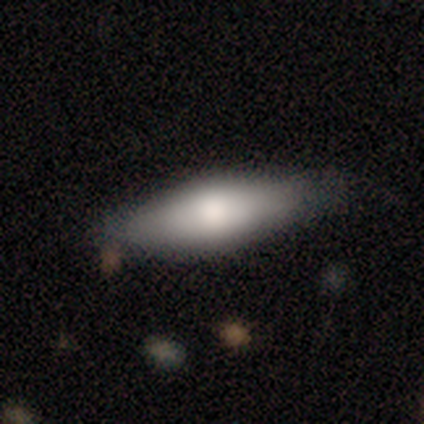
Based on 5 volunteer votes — This appears to be a smooth galaxy with no disk features (100%) that is in between round and cigar-shaped (60%). Merging: none (100%).